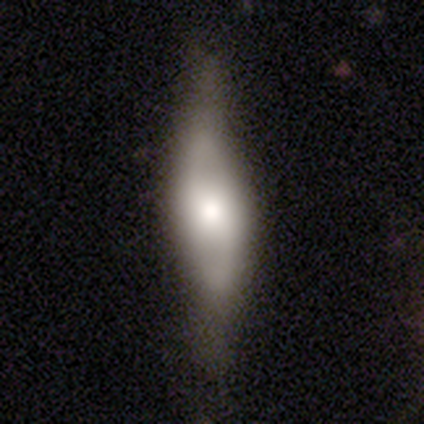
Morphology: type=featured or disk (86%); edge-on=no (67%); bar=no (75%); spiral arms=yes (50%, tied with no); winding=medium (50%, tied with loose); arm count=2 (100%); bulge=large (50%, tied with moderate); merging=none (71%).